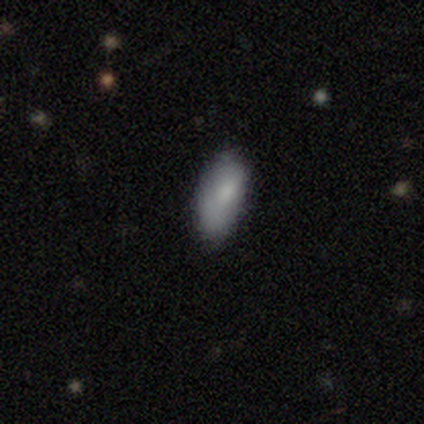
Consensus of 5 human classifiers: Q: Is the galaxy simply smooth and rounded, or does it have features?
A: smooth — 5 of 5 (100%).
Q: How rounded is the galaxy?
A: in between — 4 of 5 (80%).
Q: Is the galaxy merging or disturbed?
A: none — 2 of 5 (40%, tied with merger).